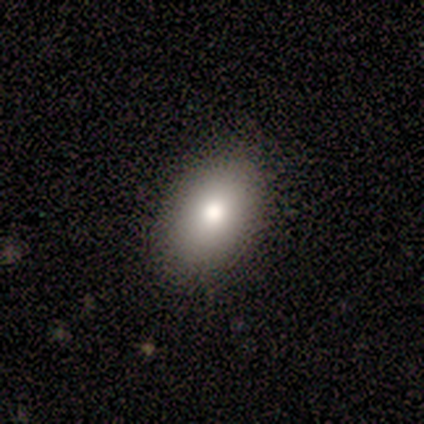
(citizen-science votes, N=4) smooth_or_featured: smooth (p=1.00)
how_rounded: in between (p=1.00)
merging: none (p=1.00)